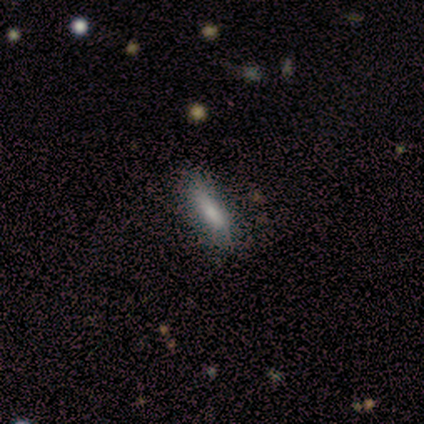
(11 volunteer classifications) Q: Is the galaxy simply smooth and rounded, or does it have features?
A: smooth — 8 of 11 (73%).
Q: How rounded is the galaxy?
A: cigar-shaped — 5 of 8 (62%).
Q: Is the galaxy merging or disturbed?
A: none — 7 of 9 (78%).